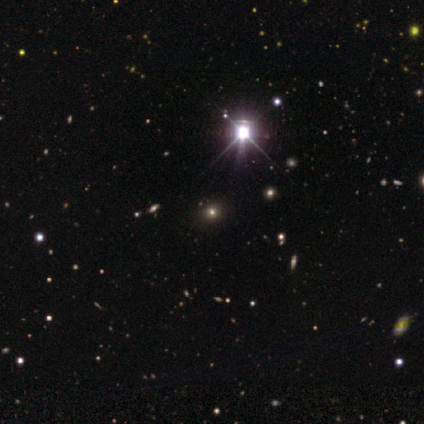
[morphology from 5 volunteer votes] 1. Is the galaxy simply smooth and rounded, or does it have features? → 80% star or artifact, 20% smooth, 0% featured or disk.